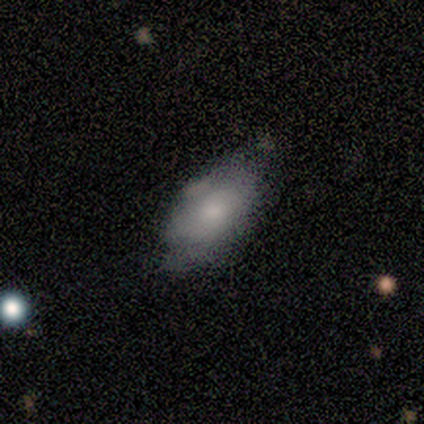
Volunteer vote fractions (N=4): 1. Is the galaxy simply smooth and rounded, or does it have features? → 100% smooth, 0% featured or disk, 0% star or artifact.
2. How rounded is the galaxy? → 100% in between, 0% round, 0% cigar-shaped.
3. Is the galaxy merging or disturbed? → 50% none, 25% minor disturbance, 25% major disturbance, 0% merger.